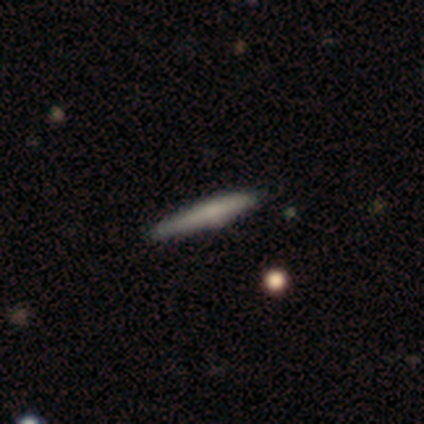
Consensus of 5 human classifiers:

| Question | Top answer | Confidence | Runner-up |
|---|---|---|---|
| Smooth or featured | smooth | 60% | featured or disk (40%) |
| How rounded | cigar-shaped | 100% | — |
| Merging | none | 60% | minor disturbance (40%) |